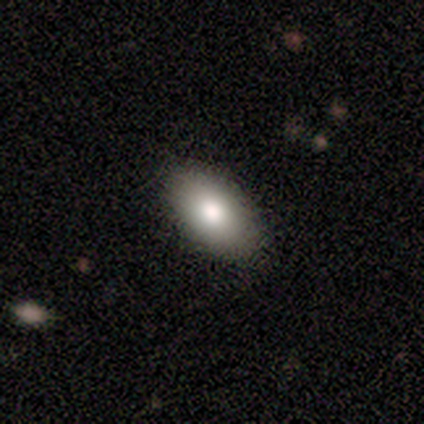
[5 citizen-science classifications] smooth_or_featured: smooth (p=1.00)
how_rounded: in between (p=1.00)
merging: none (p=1.00)